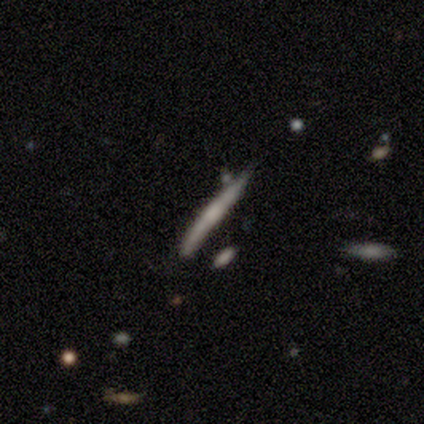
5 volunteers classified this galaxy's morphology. Overall: featured or disk (60%; smooth 40%). Edge-on disk: yes (100%). Edge-on bulge: rounded (100%). Merging: none (80%).